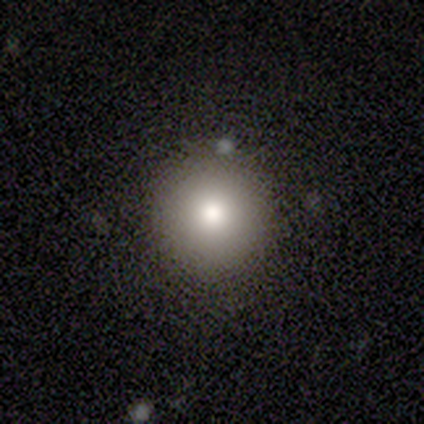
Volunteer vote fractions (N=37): smooth 84%, star or artifact 11%, featured or disk 5%. Down the decision tree: how rounded — round (100%); merging — none (97%).